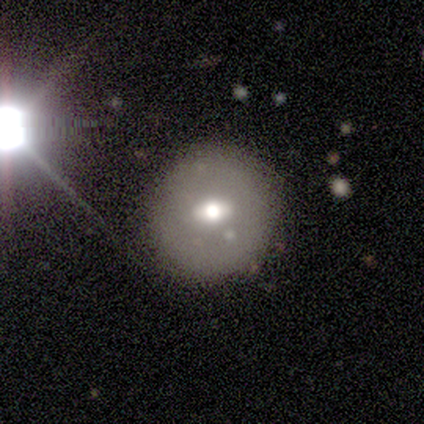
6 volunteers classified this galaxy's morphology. Volunteers were most divided on "smooth or featured": star or artifact: 50%, smooth: 33%, featured or disk: 17%.